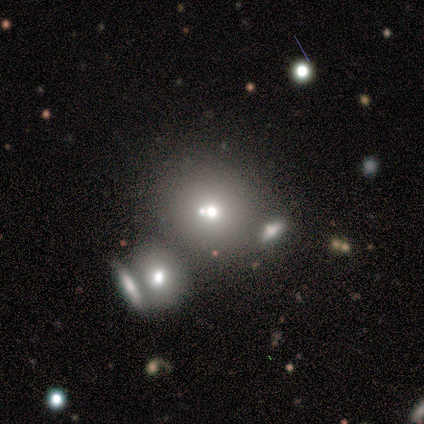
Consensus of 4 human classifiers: This appears to be a smooth galaxy with no disk features (75%) that is round (33%, tied with in between and cigar-shaped). Merging: none (33%, tied with minor disturbance and merger).